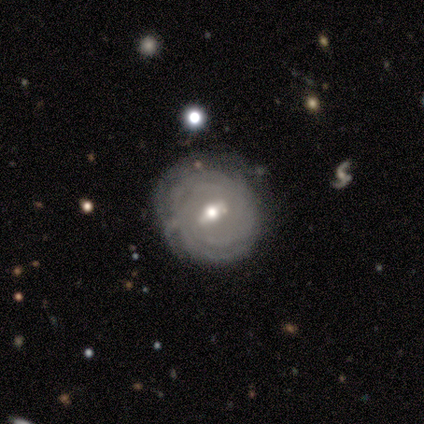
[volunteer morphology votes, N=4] Smooth or featured? featured or disk (75%)
Edge-on disk? no (100%)
Bar? no (67%)
Spiral arms? yes (100%)
Spiral winding? tight (100%)
Spiral arm count? can't tell (67%)
Bulge size? small (67%)
Merging? none (100%)